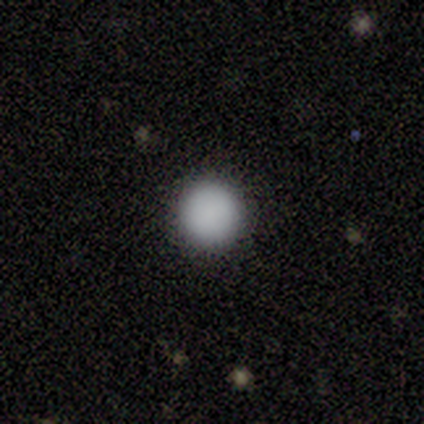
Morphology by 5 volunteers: Smooth or featured: smooth — 100%
How rounded: round — 100%
Merging: none — 100%